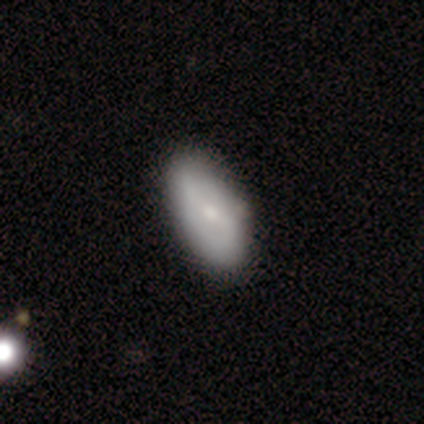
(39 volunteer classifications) Overall: smooth (59%; featured or disk 31%). How rounded: in between (100%). Merging: none (71%).